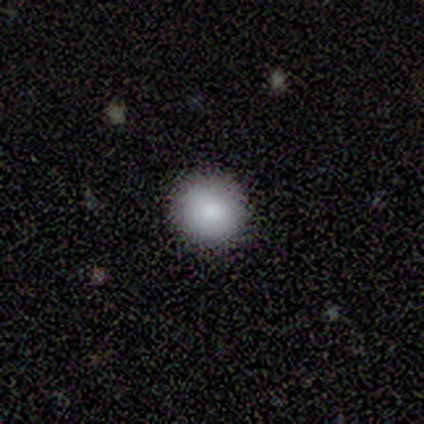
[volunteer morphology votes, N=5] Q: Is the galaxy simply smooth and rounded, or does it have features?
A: smooth — 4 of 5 (80%).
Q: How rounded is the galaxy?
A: round — 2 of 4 (50%, tied with in between).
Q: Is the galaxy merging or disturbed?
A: none — 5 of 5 (100%).